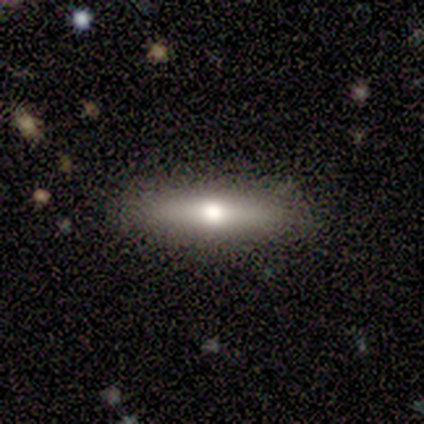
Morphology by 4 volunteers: Smooth or featured?
  - smooth: 75% *
  - featured or disk: 25%
  - star or artifact: 0%
How rounded?
  - cigar-shaped: 67% *
  - round: 33%
  - in between: 0%
Merging?
  - none: 75% *
  - merger: 25%
  - minor disturbance: 0%
  - major disturbance: 0%